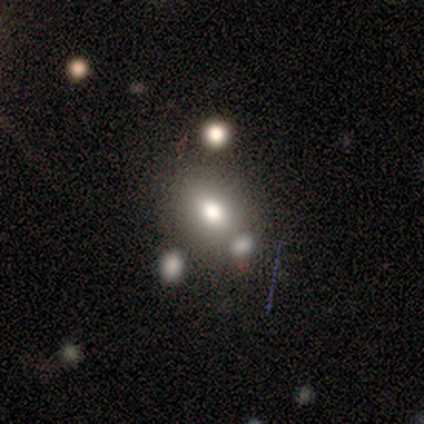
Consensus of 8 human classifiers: Smooth or featured: smooth — 88% (star or artifact — 12%)
How rounded: in between — 57% (round — 43%)
Merging: none — 86% (merger — 14%)